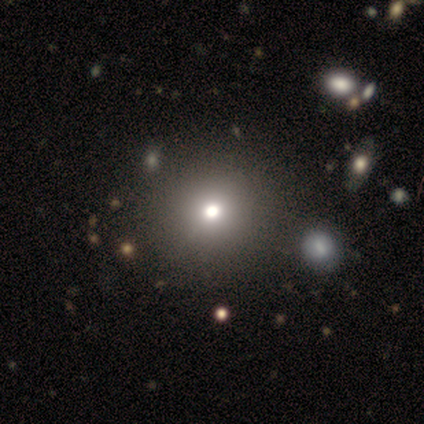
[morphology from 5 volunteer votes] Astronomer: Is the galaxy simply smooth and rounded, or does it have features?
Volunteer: smooth — 60% (runner-up: star or artifact, 40%).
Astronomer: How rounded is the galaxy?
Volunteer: round — 100%.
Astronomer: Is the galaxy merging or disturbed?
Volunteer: none — 67%.